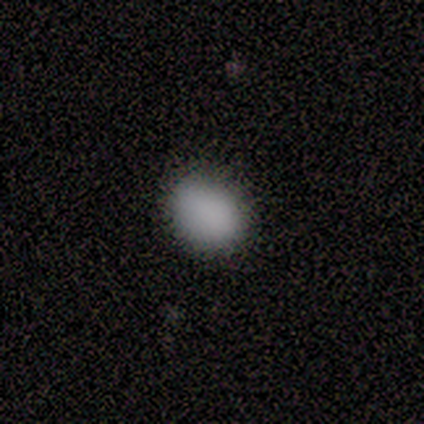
smooth-or-featured: smooth: 100% | featured or disk: 0% | star or artifact: 0%
  how-rounded: in between: 60% | round: 40% | cigar-shaped: 0%
  merging: none: 80% | minor disturbance: 20% | major disturbance: 0% | merger: 0%